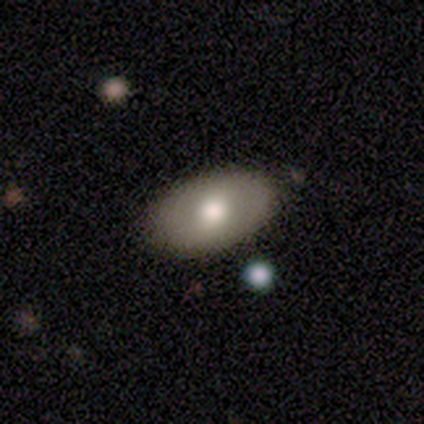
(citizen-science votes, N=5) smooth 100%, featured or disk 0%, star or artifact 0%. Down the decision tree: how rounded — in between (100%); merging — none (60%).